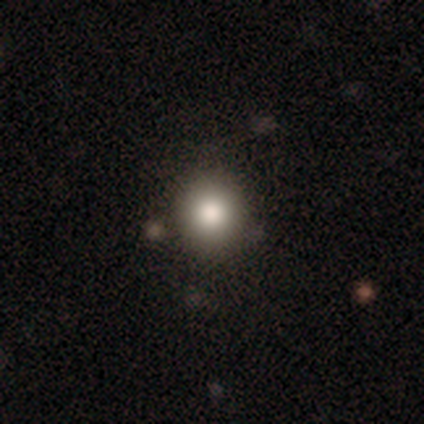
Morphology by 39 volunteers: smooth_or_featured: smooth (p=0.67) [alt: featured or disk p=0.18]
how_rounded: round (p=0.92) [alt: in between p=0.08]
merging: none (p=0.64) [alt: minor disturbance p=0.03]